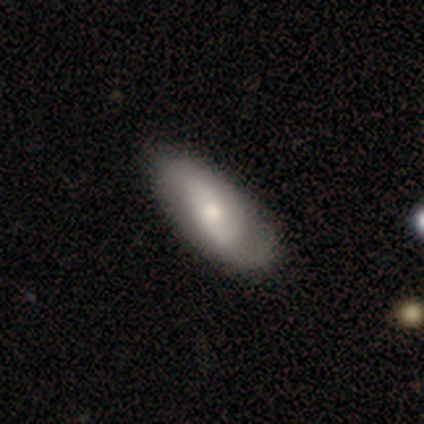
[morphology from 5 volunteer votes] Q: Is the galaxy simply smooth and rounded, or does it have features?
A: smooth — 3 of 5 (60%).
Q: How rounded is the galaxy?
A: in between — 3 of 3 (100%).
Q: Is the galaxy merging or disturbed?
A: none — 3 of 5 (60%).